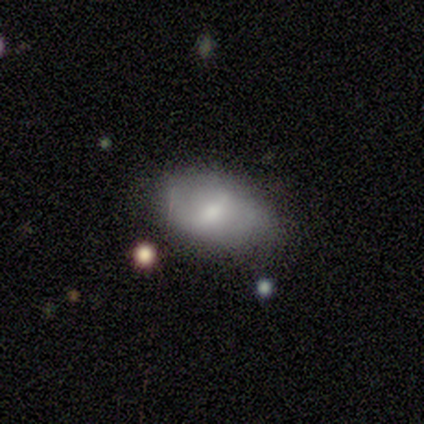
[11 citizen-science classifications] Morphology: type=featured or disk (55%); edge-on=no (100%); bar=weak (50%); spiral arms=yes (67%); winding=medium (50%); arm count=can't tell (50%); bulge=moderate (67%); merging=none (80%).